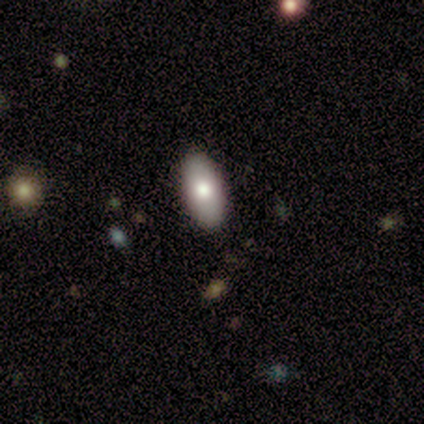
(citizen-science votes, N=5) Smooth or featured: smooth — 80% (star or artifact — 20%)
How rounded: in between — 100%
Merging: none — 100%